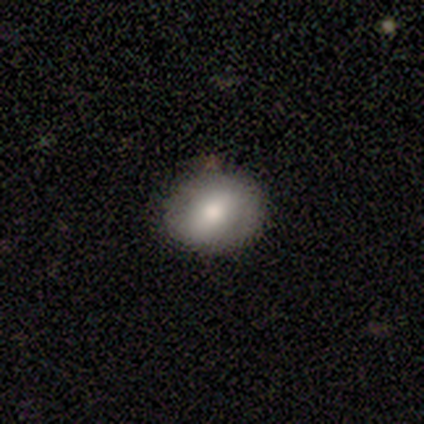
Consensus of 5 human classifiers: This appears to be a smooth galaxy with no disk features (60%) that is in between round and cigar-shaped (100%). Merging: none (100%).